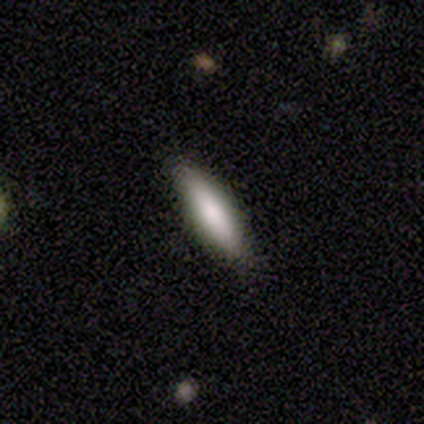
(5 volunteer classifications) A smooth galaxy with no disk features (80%) that is cigar-shaped (75%). Merging: none (60%).